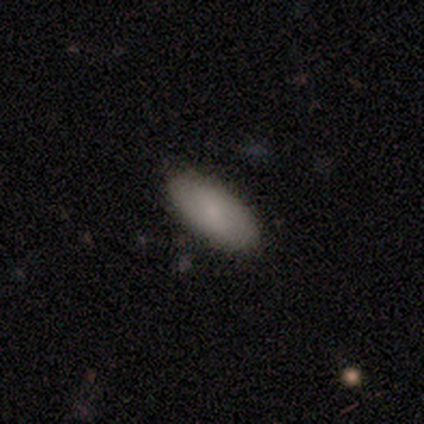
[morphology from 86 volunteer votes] Q: Smooth or featured?
A: smooth (81%); runner-up: featured or disk (13%)
Q: How rounded?
A: in between (93%); runner-up: cigar-shaped (7%)
Q: Merging?
A: none (90%); runner-up: minor disturbance (6%)